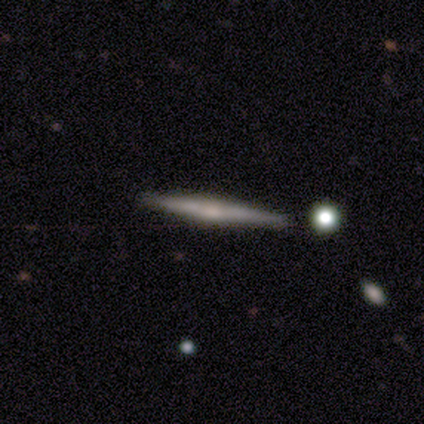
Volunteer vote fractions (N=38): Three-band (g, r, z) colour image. It shows a featured or disk galaxy (66%) viewed edge-on (96%) with a rounded central bulge (54%). Merging: none (91%).